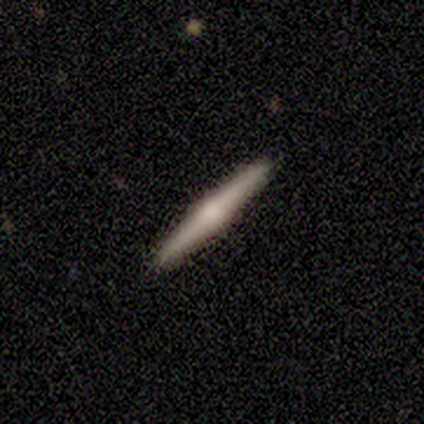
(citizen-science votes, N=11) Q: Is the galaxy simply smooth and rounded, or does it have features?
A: featured or disk — 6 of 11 (55%).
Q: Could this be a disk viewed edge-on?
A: yes — 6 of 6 (100%).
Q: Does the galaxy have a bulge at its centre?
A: rounded — 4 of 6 (67%).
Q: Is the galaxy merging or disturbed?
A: none — 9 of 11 (82%).